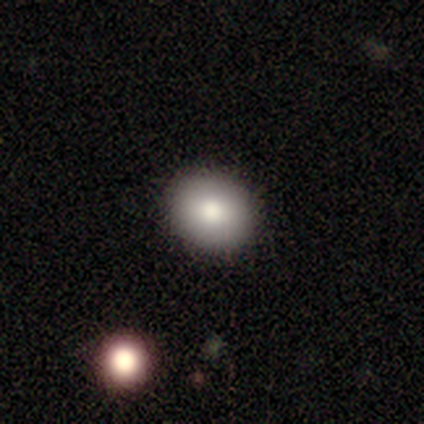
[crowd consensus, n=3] Q: Smooth or featured?
A: smooth (100%)
Q: How rounded?
A: round (100%)
Q: Merging?
A: none (100%)